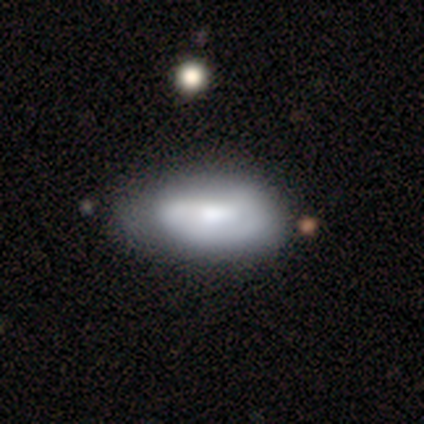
smooth_or_featured: featured or disk (p=0.53) [alt: smooth p=0.47]
disk_edge_on: no (p=0.95) [alt: yes p=0.05]
bar: weak (p=0.47) [tied with: no p=0.47]
has_spiral_arms: yes (p=0.63) [alt: no p=0.37]
spiral_winding: tight (p=0.50) [alt: medium p=0.33]
spiral_arm_count: 1 (p=0.42) [alt: can't tell p=0.33]
bulge_size: moderate (p=0.53) [alt: large p=0.21]
merging: minor disturbance (p=0.32) [alt: none p=0.24]